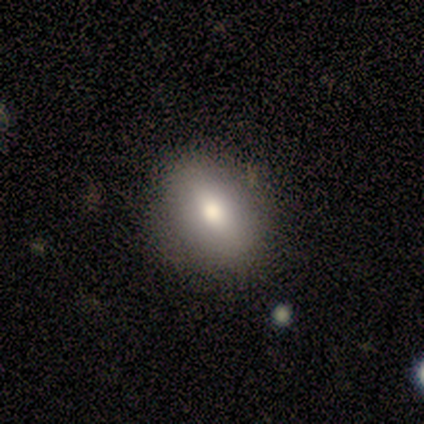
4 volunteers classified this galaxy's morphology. smooth-or-featured: smooth: 50% (tied) | star or artifact: 50% (tied) | featured or disk: 0%
  how-rounded: round: 100% | in between: 0% | cigar-shaped: 0%
  merging: none: 100% | minor disturbance: 0% | major disturbance: 0% | merger: 0%